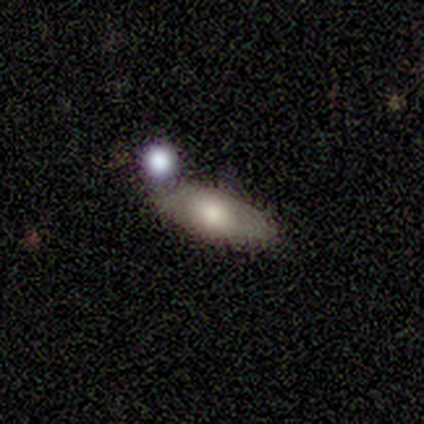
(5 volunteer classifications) This appears to be a featured or disk galaxy (60%) viewed edge-on (67%) with a rounded central bulge (100%). Merging: none (60%).